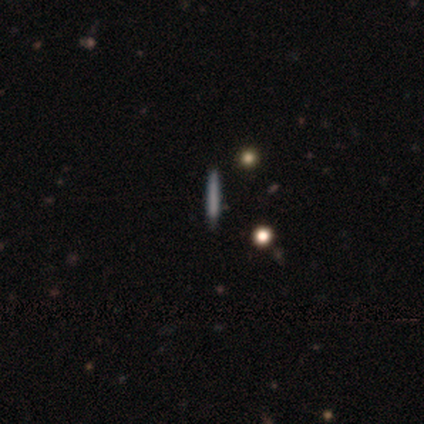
Smooth or featured: smooth — 40% (tied with featured or disk — 40%)
How rounded: cigar-shaped — 100%
Merging: none — 100%